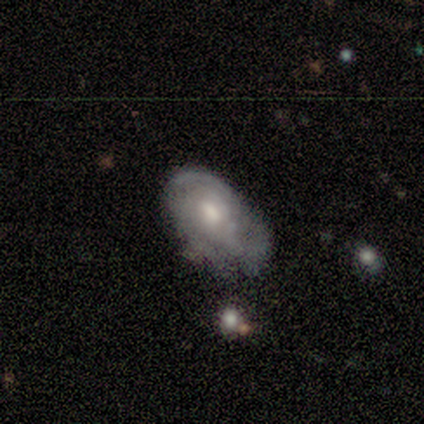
smooth-or-featured: featured or disk: 74% | smooth: 21% | star or artifact: 5%
  disk-edge-on: no: 96% | yes: 4%
    bar: no: 78% | weak: 22% | strong: 0%
    has-spiral-arms: yes: 70% | no: 30%
      spiral-winding: tight: 58% | medium: 26% | loose: 16%
      spiral-arm-count: can't tell: 47% | 2: 32% | 3: 21% | 1: 0% | 4: 0% | more than 4: 0%
    bulge-size: moderate: 59% | small: 30% | large: 11% | dominant: 0% | none: 0%
  merging: none: 53% | major disturbance: 22% | minor disturbance: 17% | merger: 8%